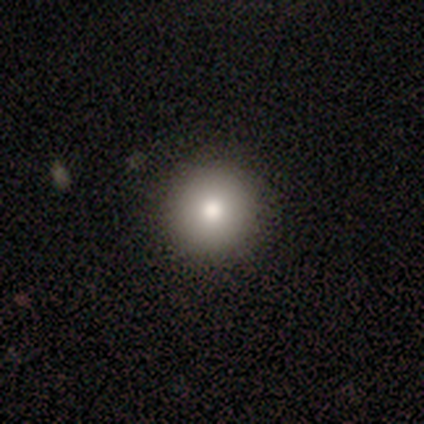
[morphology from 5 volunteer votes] Smooth or featured: smooth — 80% (featured or disk — 20%)
How rounded: round — 100%
Merging: none — 80% (minor disturbance — 20%)